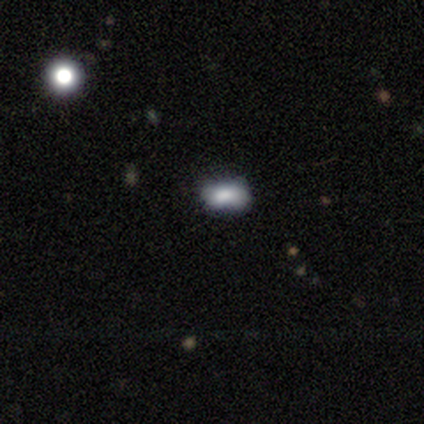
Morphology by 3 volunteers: type=smooth (67%); roundness=in between (100%); merging=none (100%).